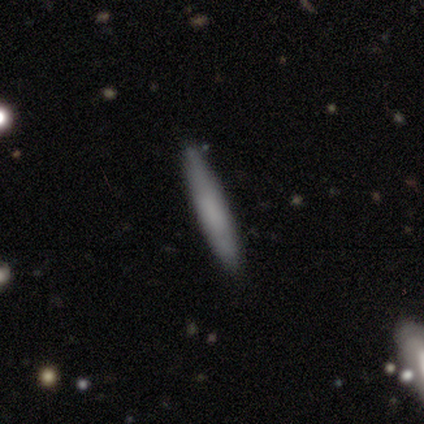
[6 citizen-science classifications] smooth-or-featured: smooth: 83% | featured or disk: 17% | star or artifact: 0%
  how-rounded: cigar-shaped: 100% | round: 0% | in between: 0%
  merging: none: 83% | minor disturbance: 17% | major disturbance: 0% | merger: 0%